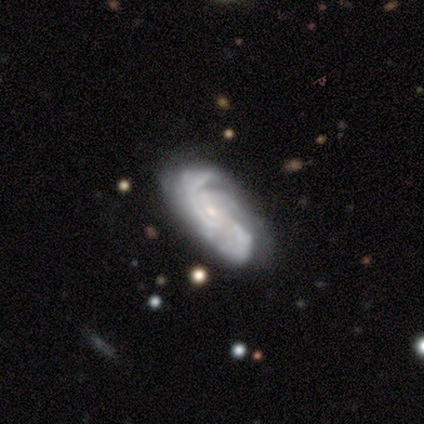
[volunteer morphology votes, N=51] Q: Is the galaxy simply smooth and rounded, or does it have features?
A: featured or disk — 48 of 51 (94%).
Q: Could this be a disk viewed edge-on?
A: no — 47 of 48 (98%).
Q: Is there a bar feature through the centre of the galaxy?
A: no — 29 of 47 (62%).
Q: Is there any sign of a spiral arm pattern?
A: yes — 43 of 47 (91%).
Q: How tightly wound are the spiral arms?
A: tight — 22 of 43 (51%).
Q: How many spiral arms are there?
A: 3 — 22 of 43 (51%).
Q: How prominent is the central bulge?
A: small — 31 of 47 (66%).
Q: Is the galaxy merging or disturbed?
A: none — 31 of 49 (63%).